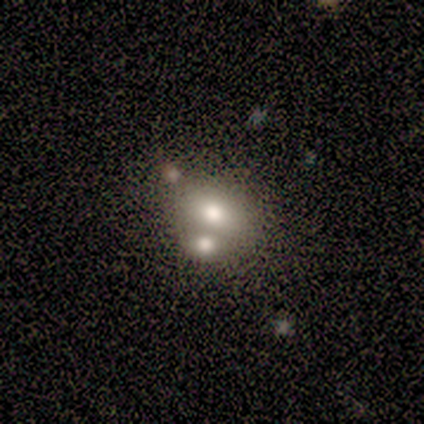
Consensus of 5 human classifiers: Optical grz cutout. It shows a smooth galaxy with no disk features (40%, tied with featured or disk) that is in between round and cigar-shaped (100%). Merging: merger (75%).